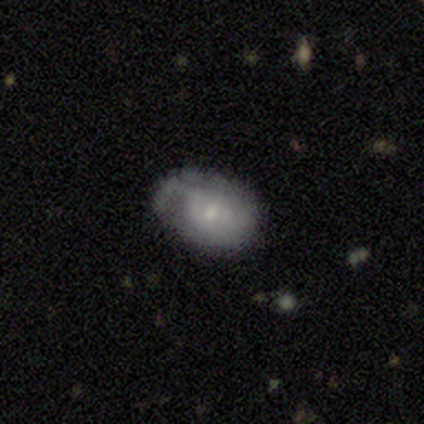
Q: Smooth or featured?
A: smooth (60%); runner-up: featured or disk (40%)
Q: How rounded?
A: in between (67%); runner-up: round (33%)
Q: Merging?
A: none (40%); tied with: minor disturbance (40%)